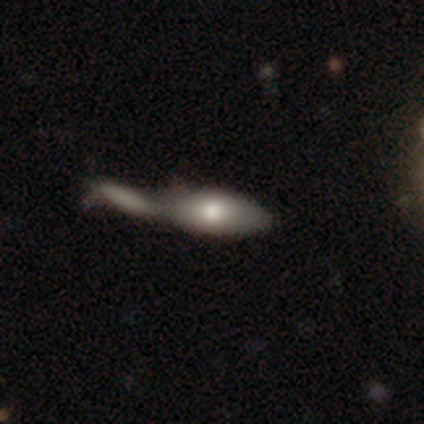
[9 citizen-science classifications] Smooth or featured: smooth — 56% (featured or disk — 44%)
How rounded: in between — 80% (cigar-shaped — 20%)
Merging: merger — 67% (none — 22%)